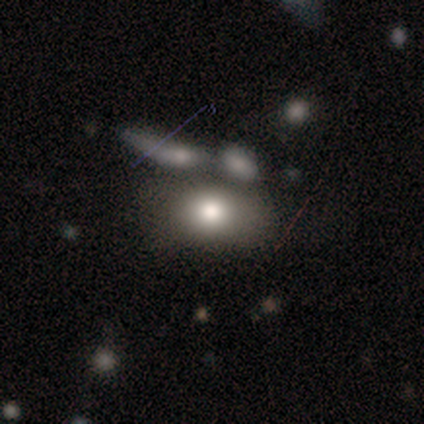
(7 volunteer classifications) smooth_or_featured: smooth (p=0.86) [alt: star or artifact p=0.14]
how_rounded: in between (p=1.00)
merging: none (p=0.67) [alt: minor disturbance p=0.17]